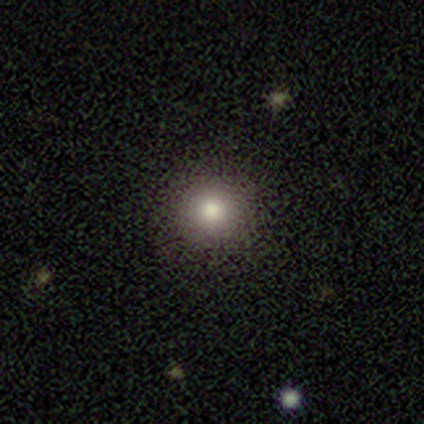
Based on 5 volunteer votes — smooth_or_featured: smooth (p=0.80) [alt: featured or disk p=0.20]
how_rounded: round (p=1.00)
merging: none (p=0.80) [alt: minor disturbance p=0.20]